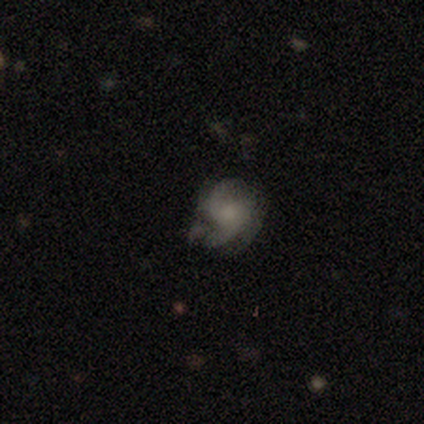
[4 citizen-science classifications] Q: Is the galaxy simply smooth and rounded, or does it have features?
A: featured or disk — 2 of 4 (50%).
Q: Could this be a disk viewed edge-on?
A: no — 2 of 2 (100%).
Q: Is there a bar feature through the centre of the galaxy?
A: weak — 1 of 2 (50%, tied with no).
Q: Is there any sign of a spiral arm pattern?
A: yes — 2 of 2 (100%).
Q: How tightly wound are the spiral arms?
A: medium — 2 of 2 (100%).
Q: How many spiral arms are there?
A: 2 — 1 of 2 (50%, tied with 3).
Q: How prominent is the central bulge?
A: moderate — 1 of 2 (50%, tied with small).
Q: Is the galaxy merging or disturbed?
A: none — 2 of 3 (67%).